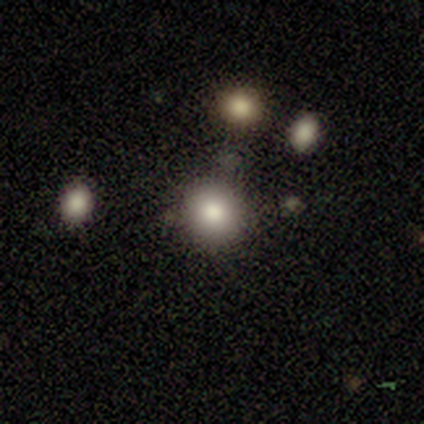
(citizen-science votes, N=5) A smooth galaxy with no disk features (100%) that is round (100%). Merging: none (60%).